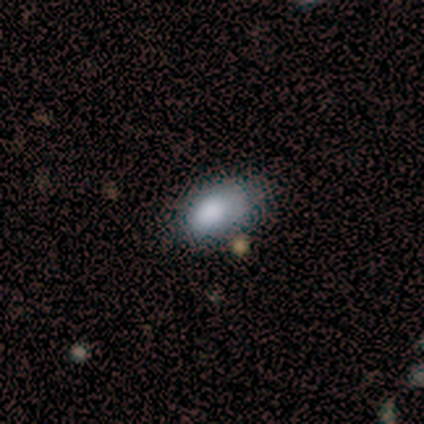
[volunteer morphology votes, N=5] Smooth or featured: smooth — 60% (star or artifact — 40%)
How rounded: in between — 100%
Merging: none — 67% (minor disturbance — 33%)